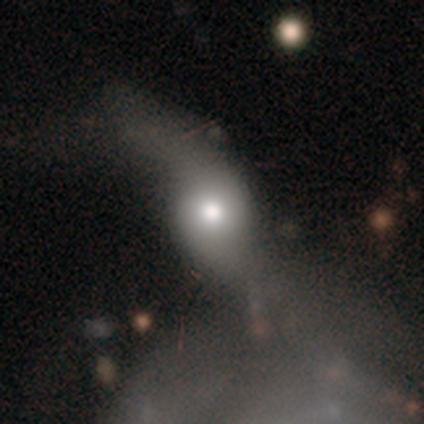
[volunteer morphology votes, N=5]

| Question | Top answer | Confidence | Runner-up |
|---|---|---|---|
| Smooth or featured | smooth | 60% | featured or disk (40%) |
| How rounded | in between | 67% | round (33%) |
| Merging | major disturbance | 60% | merger (40%) |